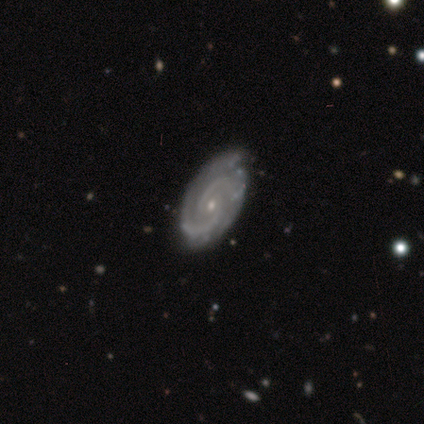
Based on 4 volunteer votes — Smooth or featured?
  - featured or disk: 100% *
  - smooth: 0%
  - star or artifact: 0%
Edge-on disk?
  - no: 100% *
  - yes: 0%
Bar?
  - no: 75% *
  - weak: 25%
  - strong: 0%
Spiral arms?
  - yes: 100% *
  - no: 0%
Spiral winding?
  - medium: 50% *
  - tight: 25%
  - loose: 25%
Spiral arm count?
  - 2: 100% *
  - 1: 0%
  - 3: 0%
  - 4: 0%
  - more than 4: 0%
  - can't tell: 0%
Bulge size?
  - small: 75% *
  - none: 25%
  - dominant: 0%
  - large: 0%
  - moderate: 0%
Merging?
  - none: 100% *
  - minor disturbance: 0%
  - major disturbance: 0%
  - merger: 0%